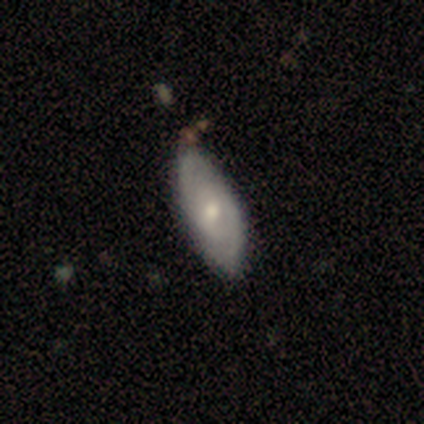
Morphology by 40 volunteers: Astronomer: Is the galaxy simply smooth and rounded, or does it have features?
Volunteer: featured or disk — 55% (runner-up: smooth, 40%).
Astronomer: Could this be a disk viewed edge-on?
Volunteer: no — 100%.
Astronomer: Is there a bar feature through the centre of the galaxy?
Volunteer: weak — 45%, tied with no at 45%.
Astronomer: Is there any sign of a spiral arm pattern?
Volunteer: yes — 77%.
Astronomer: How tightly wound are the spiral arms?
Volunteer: medium — 82%.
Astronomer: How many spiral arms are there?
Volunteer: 2 — 71%.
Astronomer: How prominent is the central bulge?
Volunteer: moderate — 55% (runner-up: small, 32%).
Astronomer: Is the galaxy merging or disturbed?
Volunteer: none — 45% (runner-up: minor disturbance, 26%).